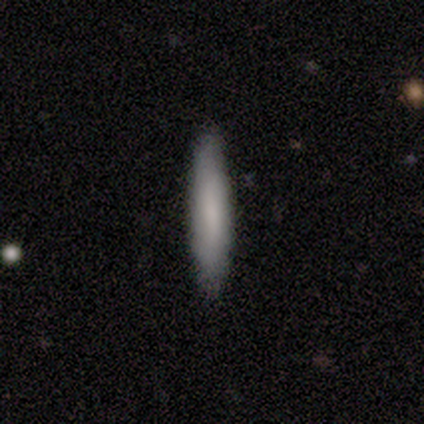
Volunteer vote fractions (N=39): Volunteers were most divided on "smooth or featured": smooth: 77%, featured or disk: 15%, star or artifact: 8%. More confident: how rounded — cigar-shaped (93%); merging — none (92%).